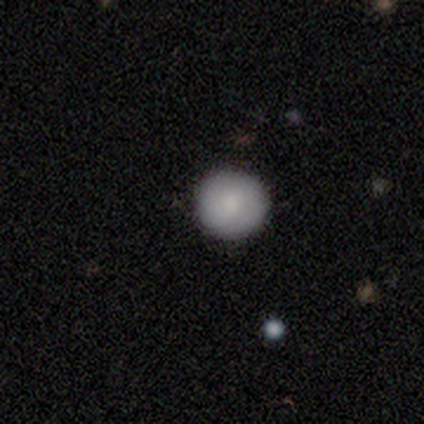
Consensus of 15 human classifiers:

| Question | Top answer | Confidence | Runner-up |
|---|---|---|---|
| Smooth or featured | smooth | 87% | featured or disk (13%) |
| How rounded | round | 100% | — |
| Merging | none | 93% | minor disturbance (7%) |